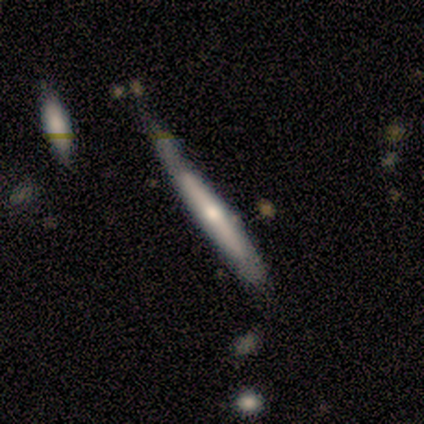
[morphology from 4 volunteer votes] A smooth galaxy with no disk features (100%) that is cigar-shaped (100%). Merging: none (50%, tied with minor disturbance).